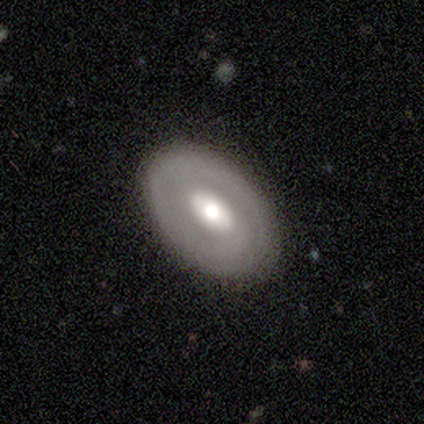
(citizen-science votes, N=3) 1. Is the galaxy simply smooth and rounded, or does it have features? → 100% featured or disk, 0% smooth, 0% star or artifact.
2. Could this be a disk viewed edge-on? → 100% no, 0% yes.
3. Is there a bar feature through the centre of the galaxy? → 67% strong, 33% no, 0% weak.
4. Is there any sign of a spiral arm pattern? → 100% no, 0% yes.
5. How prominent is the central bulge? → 67% moderate, 33% large, 0% dominant, 0% small, 0% none.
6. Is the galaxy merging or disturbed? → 100% none, 0% minor disturbance, 0% major disturbance, 0% merger.